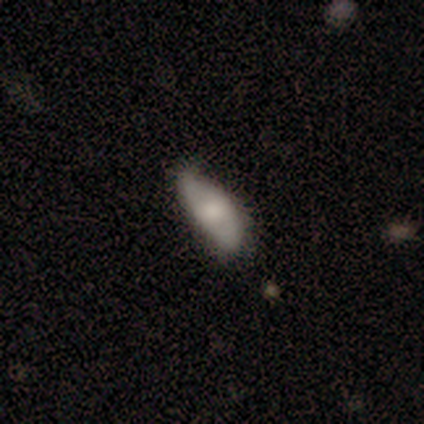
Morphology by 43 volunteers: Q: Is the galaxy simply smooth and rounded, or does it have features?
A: smooth — 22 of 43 (51%).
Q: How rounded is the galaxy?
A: in between — 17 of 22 (77%).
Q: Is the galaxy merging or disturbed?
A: none — 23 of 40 (57%).